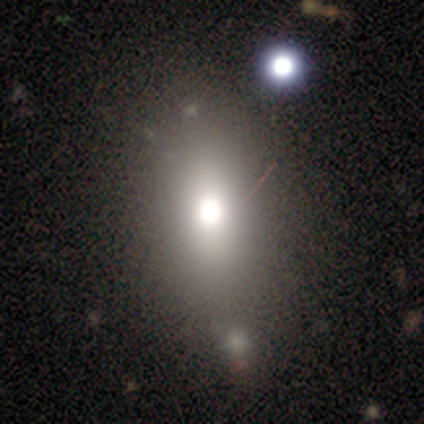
Smooth or featured?
  - smooth: 62% *
  - featured or disk: 28%
  - star or artifact: 10%
How rounded?
  - in between: 88% *
  - cigar-shaped: 8%
  - round: 4%
Merging?
  - none: 60% *
  - minor disturbance: 17%
  - merger: 11%
  - major disturbance: 3%